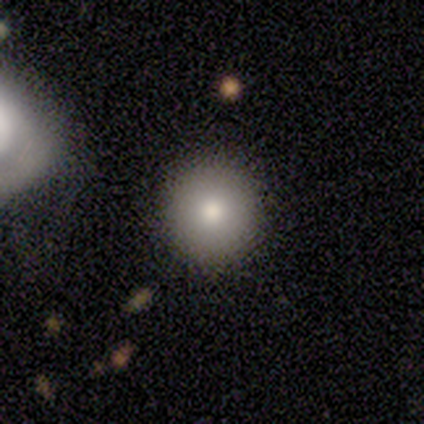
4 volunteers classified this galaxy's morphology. A smooth galaxy with no disk features (75%) that is round (100%).

Vote fractions:
- Smooth or featured? smooth: 75% / star or artifact: 25% / featured or disk: 0%
- How rounded? round: 100% / in between: 0% / cigar-shaped: 0%
- Merging? none: 100% / minor disturbance: 0% / major disturbance: 0% / merger: 0%